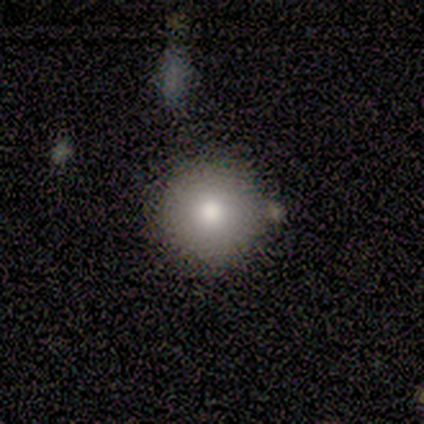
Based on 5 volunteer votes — A smooth galaxy with no disk features (100%) that is round (100%).

Vote fractions:
- Smooth or featured? smooth: 100% / featured or disk: 0% / star or artifact: 0%
- How rounded? round: 100% / in between: 0% / cigar-shaped: 0%
- Merging? none: 100% / minor disturbance: 0% / major disturbance: 0% / merger: 0%